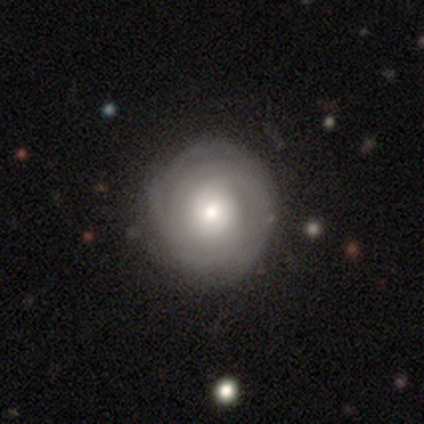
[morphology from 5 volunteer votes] featured or disk 80%, smooth 20%, star or artifact 0%. Down the decision tree: edge-on disk — no (100%); bar — no (75%); spiral arms — yes (75%); spiral arm count — can't tell (67%); spiral winding — tight (100%); bulge size — moderate (100%); merging — none (80%).